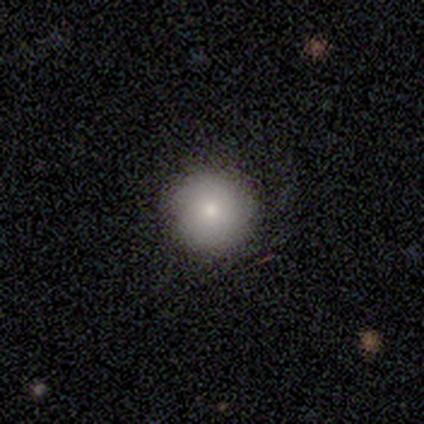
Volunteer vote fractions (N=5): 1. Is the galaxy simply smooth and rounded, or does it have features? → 100% smooth, 0% featured or disk, 0% star or artifact.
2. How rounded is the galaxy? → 100% round, 0% in between, 0% cigar-shaped.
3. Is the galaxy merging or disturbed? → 60% none, 40% minor disturbance, 0% major disturbance, 0% merger.